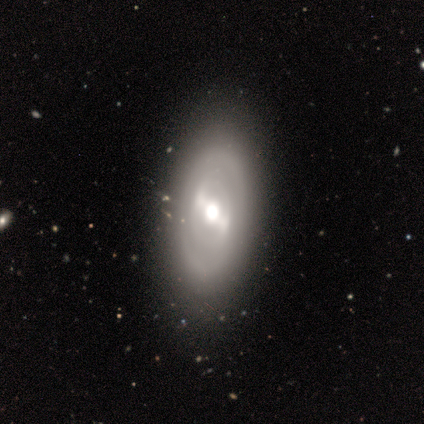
This appears to be a featured or disk galaxy (60%) with no bar (67%), 2 (50%, tied with can't tell) tight (50%, tied with medium) spiral arms (67%) and a dominant central bulge (33%, tied with large and moderate). Merging: none (75%).